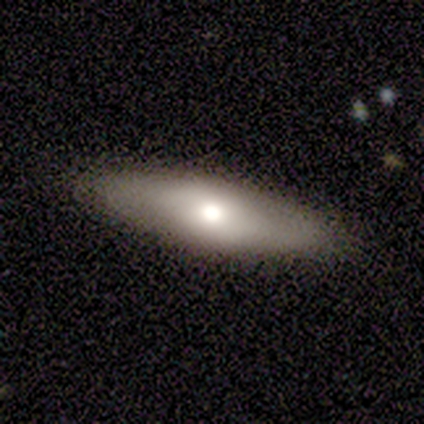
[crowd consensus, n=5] Overall: smooth (60%; featured or disk 40%). How rounded: in between (67%; cigar-shaped 33%). Merging: none (80%).